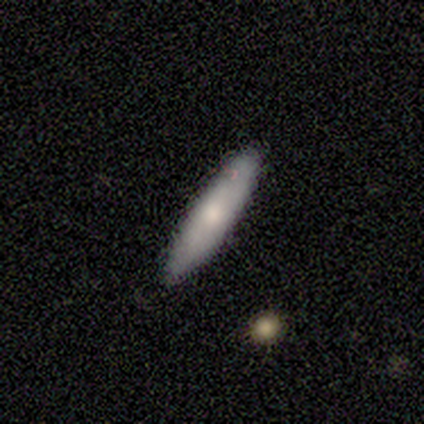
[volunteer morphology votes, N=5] This appears to be a smooth galaxy with no disk features (80%) that is cigar-shaped (100%). Merging: none (80%).